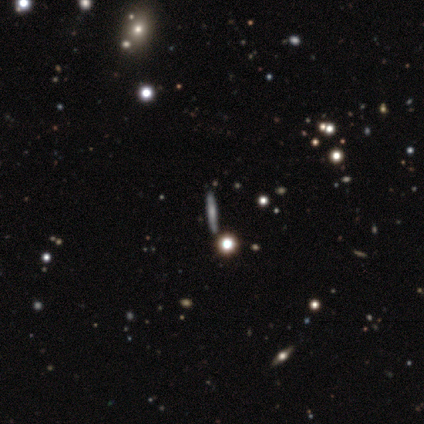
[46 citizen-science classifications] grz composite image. It shows a smooth galaxy with no disk features (37%, tied with featured or disk) that is cigar-shaped (76%). Merging: none (91%).